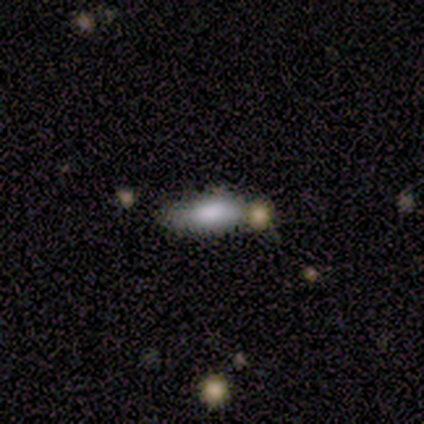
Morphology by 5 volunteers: This is clearly a smooth galaxy (80%). How rounded: likely cigar-shaped (75%). Merging: clearly none (100%).